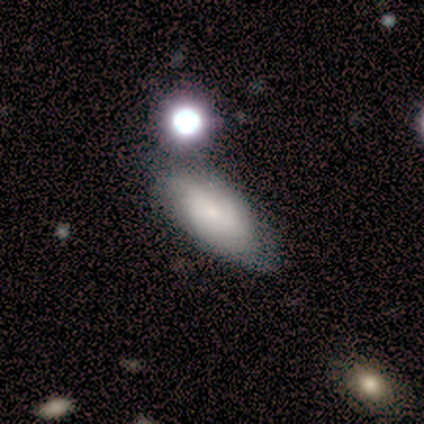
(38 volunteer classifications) Smooth or featured?
  - smooth: 55% *
  - featured or disk: 37%
  - star or artifact: 8%
How rounded?
  - in between: 90% *
  - round: 5%
  - cigar-shaped: 5%
Merging?
  - none: 57% *
  - minor disturbance: 23%
  - major disturbance: 11%
  - merger: 9%